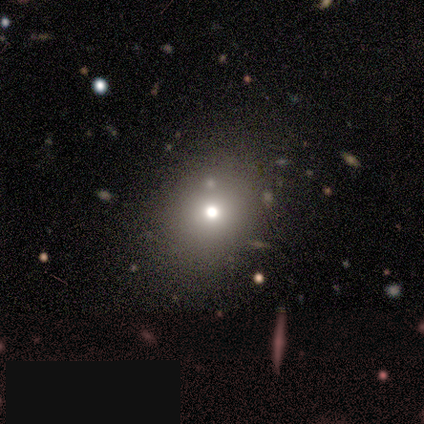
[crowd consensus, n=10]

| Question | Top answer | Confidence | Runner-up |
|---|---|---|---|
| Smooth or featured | smooth | 50% | star or artifact (40%) |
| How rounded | round | 60% | in between (40%) |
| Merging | none | 67% | minor disturbance (17%) |